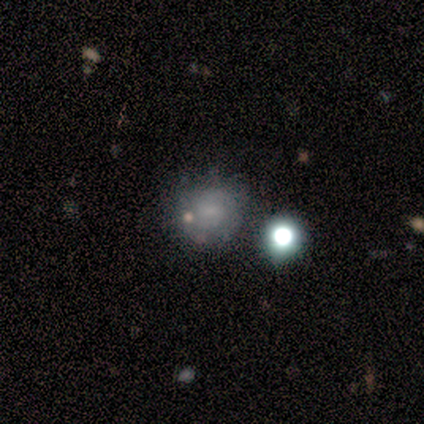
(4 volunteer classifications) This is possibly a smooth galaxy (50%). How rounded: clearly round (100%). Merging: likely none (67%).